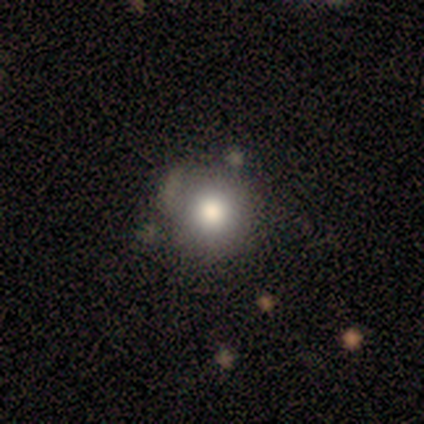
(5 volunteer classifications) A smooth galaxy with no disk features (60%) that is round (100%). Merging: none (100%).